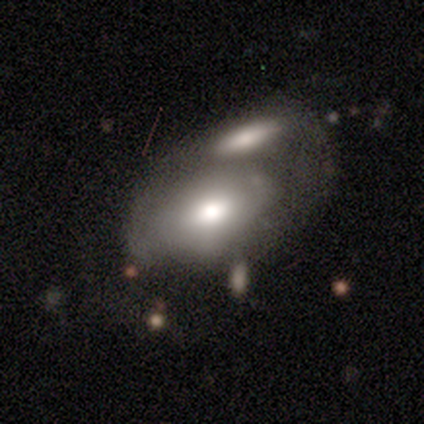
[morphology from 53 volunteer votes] Q: Smooth or featured?
A: smooth (55%); runner-up: featured or disk (40%)
Q: How rounded?
A: in between (90%); runner-up: round (7%)
Q: Merging?
A: merger (80%); runner-up: major disturbance (10%)